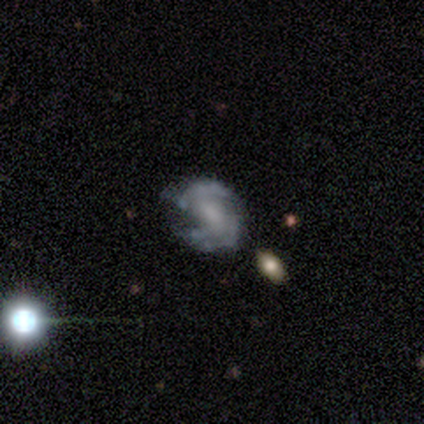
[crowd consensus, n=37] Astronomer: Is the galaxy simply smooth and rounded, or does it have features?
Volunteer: featured or disk — 78%.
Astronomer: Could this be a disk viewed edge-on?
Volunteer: no — 97%.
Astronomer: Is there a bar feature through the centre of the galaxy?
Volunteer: weak — 46% (runner-up: no, 36%).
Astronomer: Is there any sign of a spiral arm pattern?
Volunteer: yes — 75%.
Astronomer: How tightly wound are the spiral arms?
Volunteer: medium — 52%.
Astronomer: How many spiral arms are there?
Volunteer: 2 — 86%.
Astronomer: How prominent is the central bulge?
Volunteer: small — 46% (runner-up: none, 29%).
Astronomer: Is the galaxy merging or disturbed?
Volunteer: none — 76%.